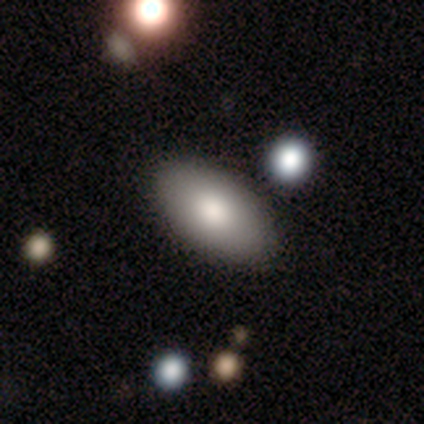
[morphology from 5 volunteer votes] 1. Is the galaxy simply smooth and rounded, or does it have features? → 100% smooth, 0% featured or disk, 0% star or artifact.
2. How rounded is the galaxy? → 100% in between, 0% round, 0% cigar-shaped.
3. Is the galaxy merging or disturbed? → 80% none, 20% minor disturbance, 0% major disturbance, 0% merger.